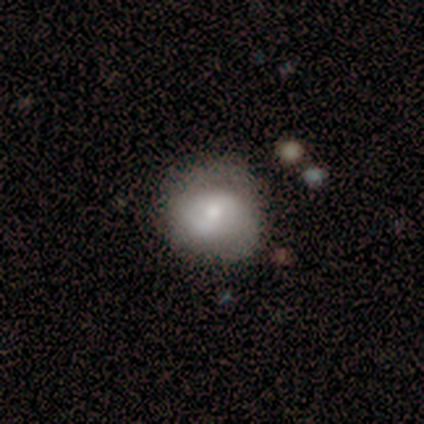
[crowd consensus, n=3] Smooth or featured?
  - smooth: 67% *
  - featured or disk: 33%
  - star or artifact: 0%
How rounded?
  - round: 100% *
  - in between: 0%
  - cigar-shaped: 0%
Merging?
  - minor disturbance: 67% *
  - major disturbance: 33%
  - none: 0%
  - merger: 0%